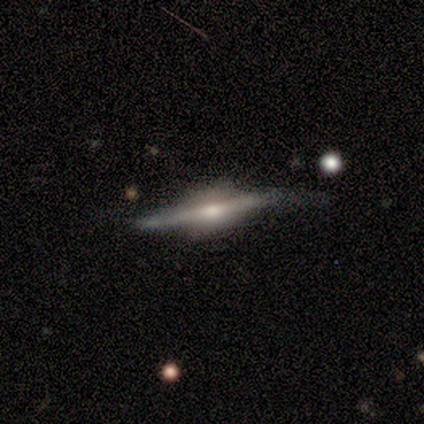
This appears to be a featured or disk galaxy (100%) viewed edge-on (100%) with a rounded central bulge (100%). Merging: none (60%).